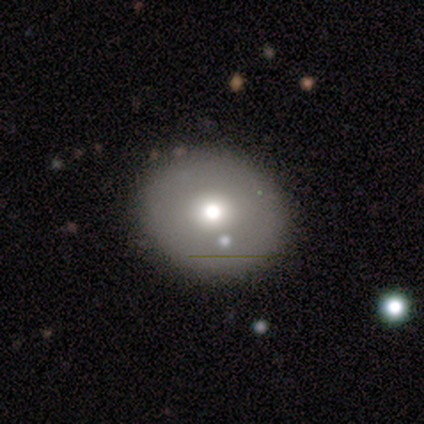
A smooth galaxy with no disk features (83%) that is round (80%). Merging: none (100%).